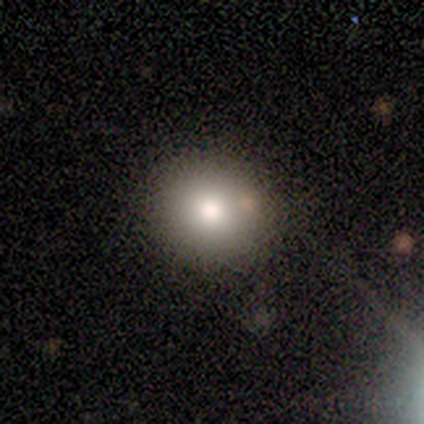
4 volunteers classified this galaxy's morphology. Q: Smooth or featured?
A: smooth (75%); runner-up: featured or disk (25%)
Q: How rounded?
A: round (67%); runner-up: in between (33%)
Q: Merging?
A: none (75%); runner-up: minor disturbance (25%)